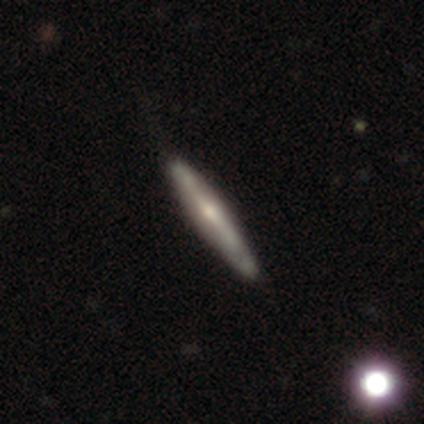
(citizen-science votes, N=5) This appears to be a smooth galaxy with no disk features (60%) that is cigar-shaped (100%). Merging: none (80%).